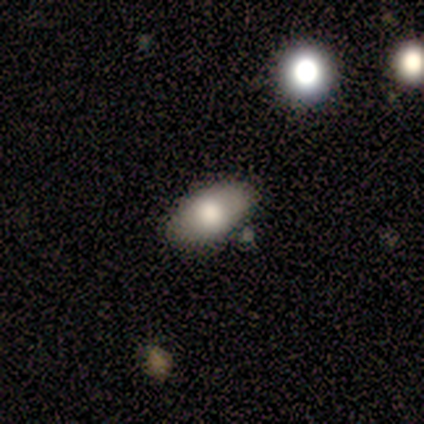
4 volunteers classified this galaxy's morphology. smooth 100%, featured or disk 0%, star or artifact 0%. Down the decision tree: how rounded — in between (100%); merging — none (100%).